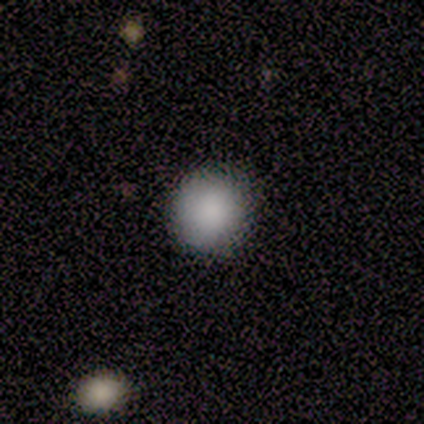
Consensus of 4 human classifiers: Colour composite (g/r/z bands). It shows a smooth galaxy with no disk features (100%) that is round (75%). Merging: none (100%).